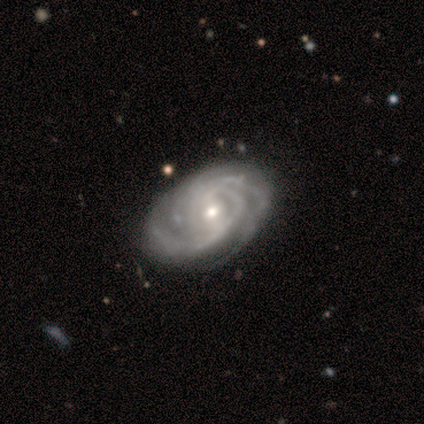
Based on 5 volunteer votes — Overall: featured or disk (80%). Edge-on disk: no (100%). Bar: strong (50%, tied with no). Spiral arms: yes (100%). Spiral arm count: 3 (75%). Spiral winding: tight (100%). Bulge size: small (75%). Merging: none (100%).